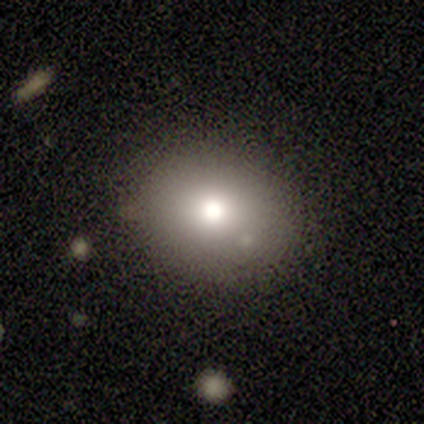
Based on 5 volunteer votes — A smooth galaxy with no disk features (60%) that is round (67%).

Vote fractions:
- Smooth or featured? smooth: 60% / star or artifact: 40% / featured or disk: 0%
- How rounded? round: 67% / in between: 33% / cigar-shaped: 0%
- Merging? none: 100% / minor disturbance: 0% / major disturbance: 0% / merger: 0%